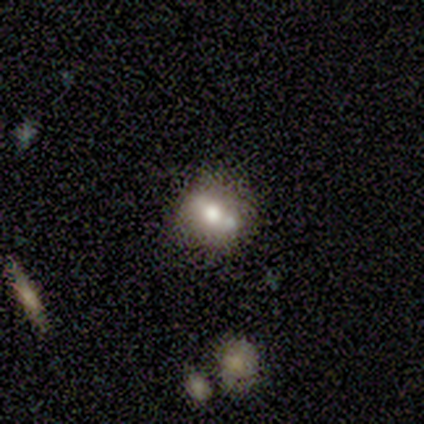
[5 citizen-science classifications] Morphology: type=smooth (100%); roundness=in between (60%); merging=none (40%, tied with minor disturbance).